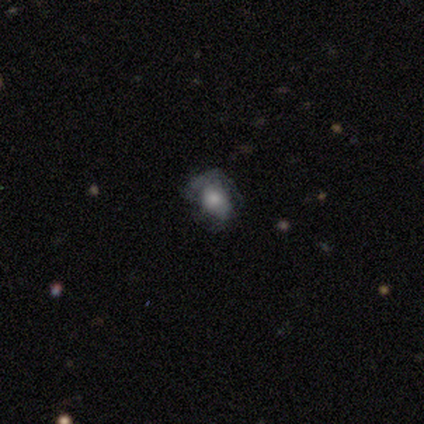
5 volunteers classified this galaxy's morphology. smooth_or_featured: smooth (p=0.60) [alt: featured or disk p=0.40]
how_rounded: in between (p=0.67) [alt: round p=0.33]
merging: none (p=0.80) [alt: minor disturbance p=0.20]